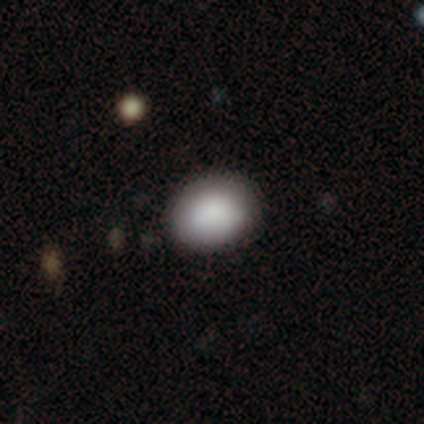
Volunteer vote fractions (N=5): Volunteers were most divided on "how rounded": in between: 60%, round: 40%, cigar-shaped: 0%. More confident: smooth or featured — smooth (100%); merging — none (100%).